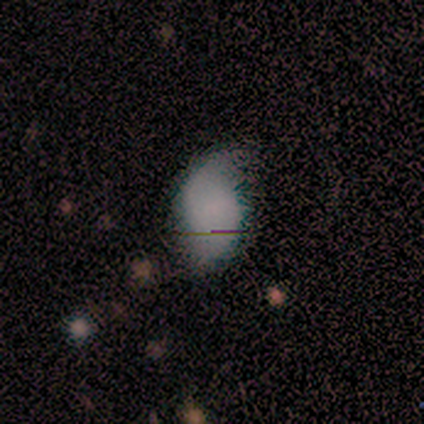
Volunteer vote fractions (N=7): Overall: smooth (71%). How rounded: in between (80%). Merging: none (40%, tied with minor disturbance).